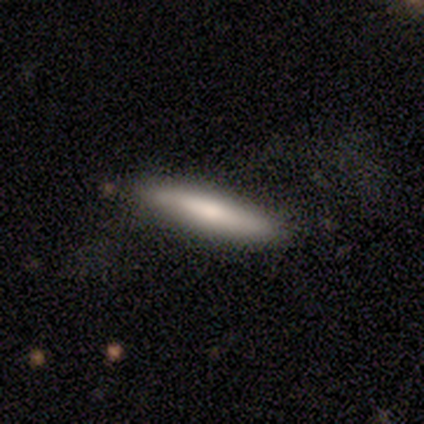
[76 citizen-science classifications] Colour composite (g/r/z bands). It shows a smooth galaxy with no disk features (67%) that is cigar-shaped (82%). Merging: none (43%).